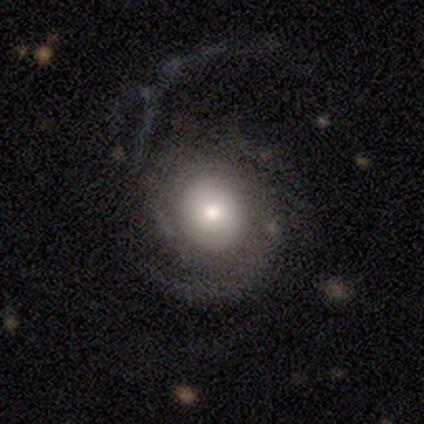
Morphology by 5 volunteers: Smooth or featured? featured or disk (80%)
Edge-on disk? no (100%)
Bar? no (50%)
Spiral arms? yes (75%)
Spiral winding? tight (67%)
Spiral arm count? 2 (67%)
Bulge size? large (50%)
Merging? none (60%)